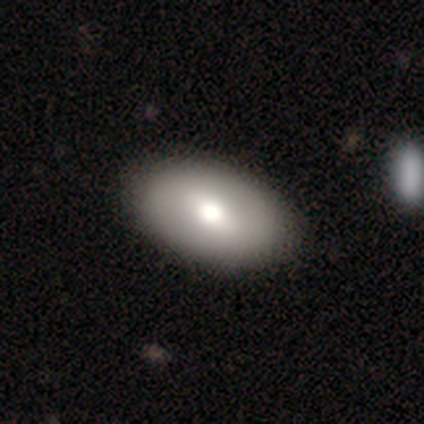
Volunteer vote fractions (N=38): smooth_or_featured: smooth (p=0.58) [alt: featured or disk p=0.39]
how_rounded: in between (p=1.00)
merging: none (p=0.51) [alt: major disturbance p=0.05]